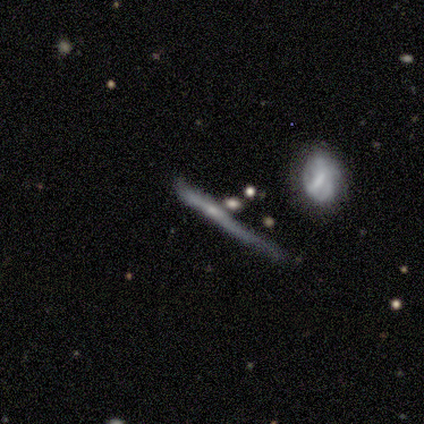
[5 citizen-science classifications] smooth_or_featured: featured or disk (p=0.60) [alt: smooth p=0.40]
disk_edge_on: yes (p=0.67) [alt: no p=0.33]
edge_on_bulge: none (p=0.50) [tied with: rounded p=0.50]
merging: none (p=0.60) [alt: minor disturbance p=0.40]